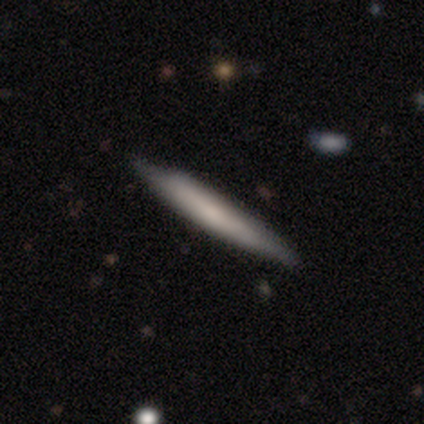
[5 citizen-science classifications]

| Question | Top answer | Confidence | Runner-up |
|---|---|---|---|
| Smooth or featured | smooth | 60% | featured or disk (40%) |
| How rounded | cigar-shaped | 100% | — |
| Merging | none | 60% | minor disturbance (40%) |